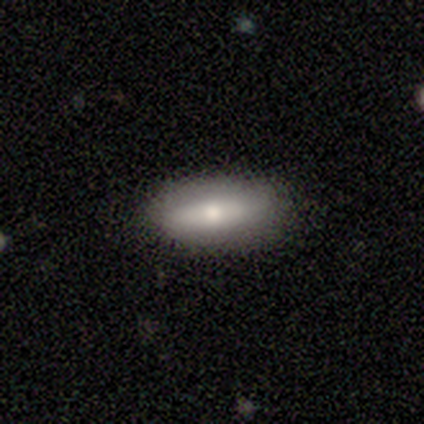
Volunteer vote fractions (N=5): A smooth galaxy with no disk features (80%) that is in between round and cigar-shaped (75%). Merging: none (80%).